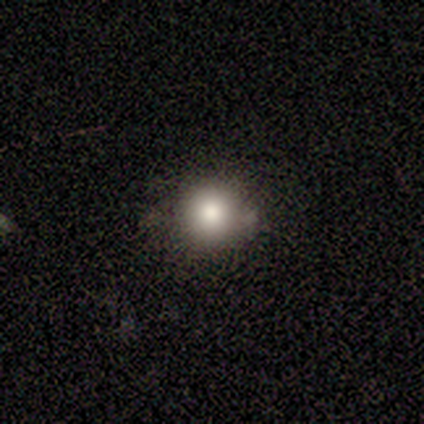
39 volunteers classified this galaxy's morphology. Smooth or featured: smooth — 85% (featured or disk — 8%)
How rounded: round — 88% (cigar-shaped — 9%)
Merging: none — 78% (minor disturbance — 19%)